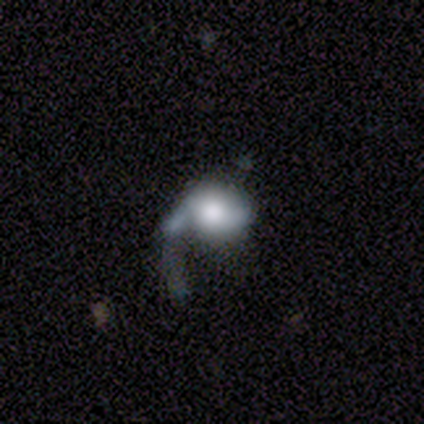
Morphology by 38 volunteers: A smooth galaxy with no disk features (53%) that is round (70%).

Vote fractions:
- Smooth or featured? smooth: 53% / featured or disk: 42% / star or artifact: 5%
- How rounded? round: 70% / in between: 30% / cigar-shaped: 0%
- Merging? major disturbance: 50% / none: 22% / minor disturbance: 17% / merger: 11%